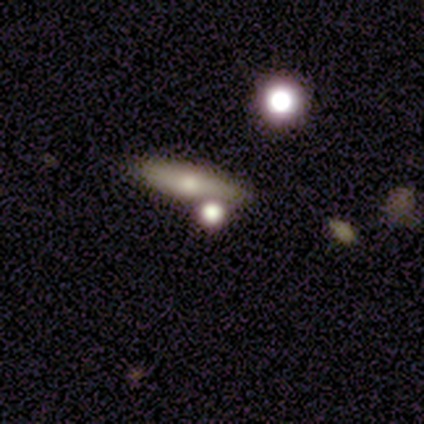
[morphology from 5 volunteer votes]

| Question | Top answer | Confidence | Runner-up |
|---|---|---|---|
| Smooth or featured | smooth | 60% | featured or disk (40%) |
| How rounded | cigar-shaped | 67% | round (33%) |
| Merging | none | 60% | merger (40%) |